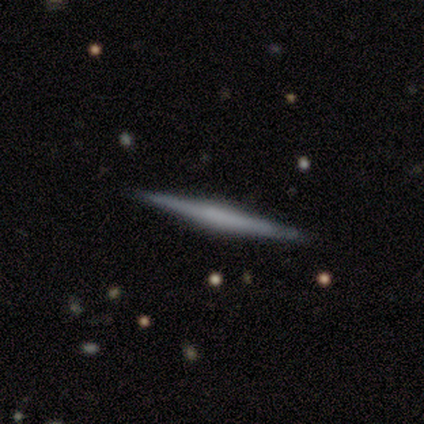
Smooth or featured?
  - featured or disk: 60% *
  - smooth: 40%
  - star or artifact: 0%
Edge-on disk?
  - yes: 100% *
  - no: 0%
Edge-on bulge?
  - rounded: 67% *
  - none: 33%
  - boxy: 0%
Merging?
  - none: 100% *
  - minor disturbance: 0%
  - major disturbance: 0%
  - merger: 0%